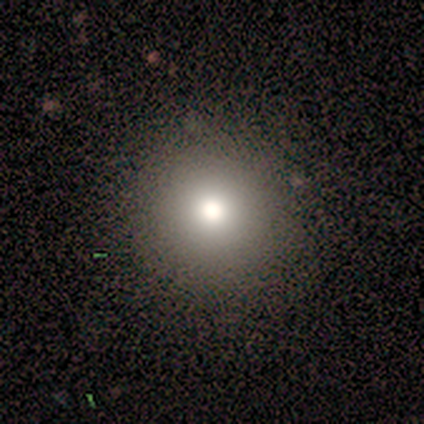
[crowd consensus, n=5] Smooth or featured?
  - smooth: 80% *
  - featured or disk: 20%
  - star or artifact: 0%
How rounded?
  - round: 100% *
  - in between: 0%
  - cigar-shaped: 0%
Merging?
  - none: 100% *
  - minor disturbance: 0%
  - major disturbance: 0%
  - merger: 0%